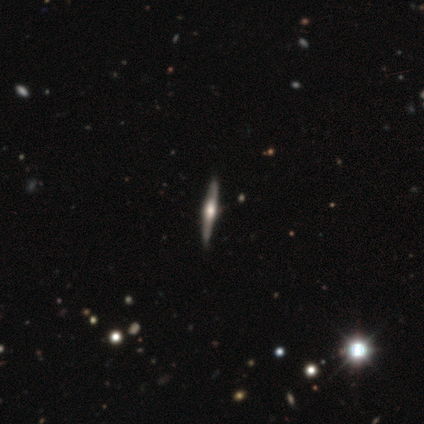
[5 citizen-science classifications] This appears to be a featured or disk galaxy (100%) viewed edge-on (100%) with a rounded central bulge (100%). Merging: none (100%).